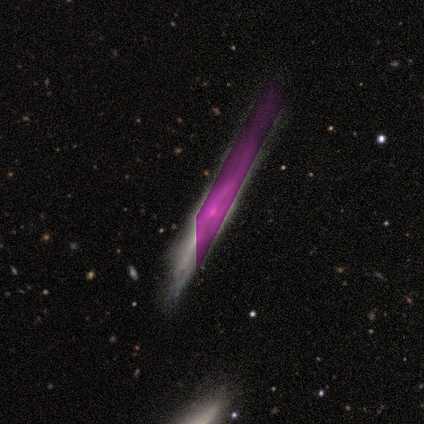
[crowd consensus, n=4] Overall: star or artifact (50%; smooth 25%).